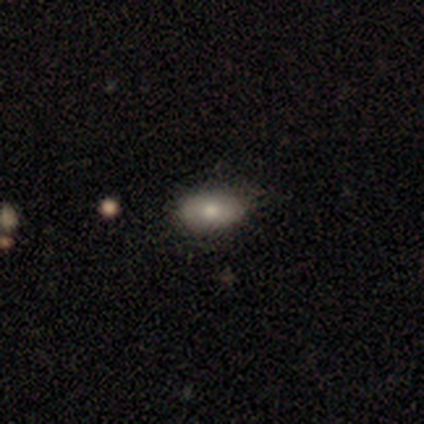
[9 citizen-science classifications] Smooth or featured?
  - smooth: 89% *
  - star or artifact: 11%
  - featured or disk: 0%
How rounded?
  - in between: 88% *
  - round: 12%
  - cigar-shaped: 0%
Merging?
  - none: 50% *
  - minor disturbance: 38%
  - merger: 12%
  - major disturbance: 0%